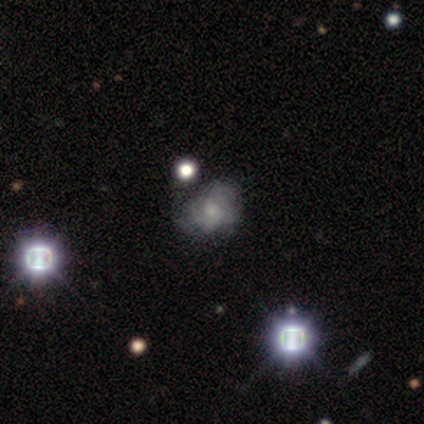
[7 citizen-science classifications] This appears to be a smooth galaxy with no disk features (71%) that is round (60%). Merging: none (57%).